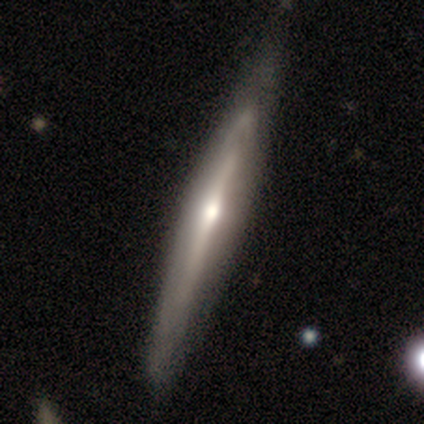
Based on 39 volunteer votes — Q: Smooth or featured?
A: featured or disk (79%); runner-up: smooth (21%)
Q: Edge-on disk?
A: yes (90%); runner-up: no (10%)
Q: Edge-on bulge?
A: rounded (82%); runner-up: none (14%)
Q: Merging?
A: none (49%); runner-up: minor disturbance (18%)